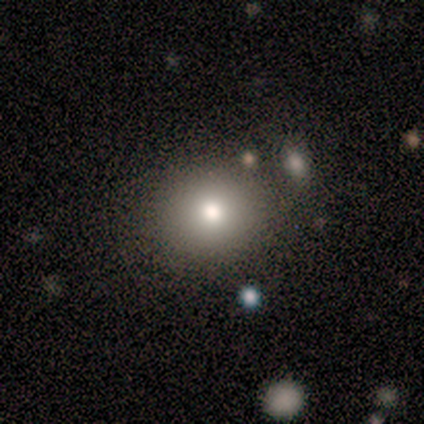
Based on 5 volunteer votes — This appears to be a smooth galaxy with no disk features (100%) that is round (100%). Merging: none (80%).